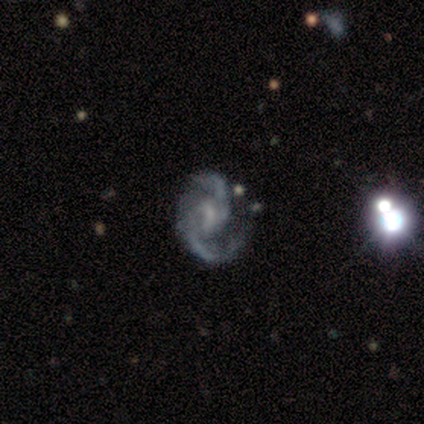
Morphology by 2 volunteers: Smooth or featured? 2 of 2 (100%) said featured or disk. Edge-on disk? 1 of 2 (50%, tied with no) said yes. Edge-on bulge? 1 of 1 (100%) said none. Merging? 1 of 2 (50%, tied with merger) said none.